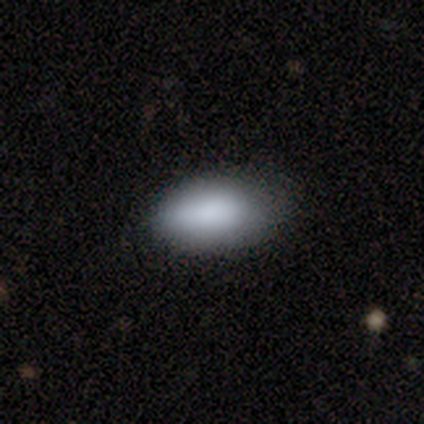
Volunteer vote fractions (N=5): Morphology: type=smooth (100%); roundness=in between (100%); merging=none (40%, tied with minor disturbance).